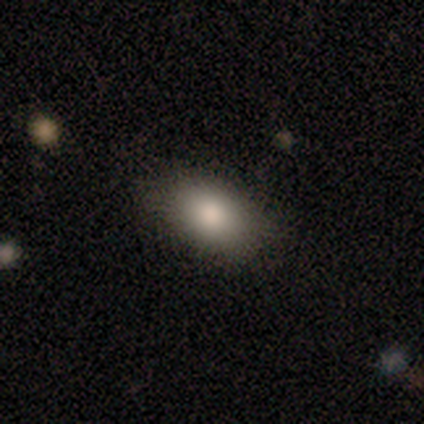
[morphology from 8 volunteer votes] smooth_or_featured: smooth (p=0.62) [alt: featured or disk p=0.25]
how_rounded: in between (p=1.00)
merging: none (p=0.86) [alt: minor disturbance p=0.14]